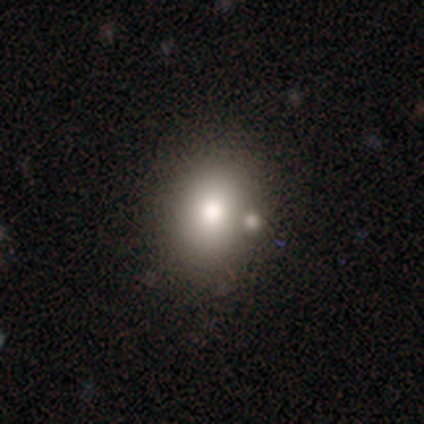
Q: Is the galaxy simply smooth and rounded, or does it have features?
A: smooth — 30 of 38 (79%).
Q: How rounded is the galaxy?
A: round — 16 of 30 (53%).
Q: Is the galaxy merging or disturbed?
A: none — 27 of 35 (77%).